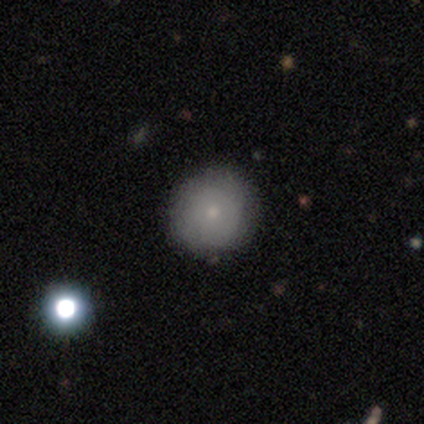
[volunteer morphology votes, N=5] Smooth or featured: smooth — 100%
How rounded: round — 80% (in between — 20%)
Merging: none — 80% (minor disturbance — 20%)